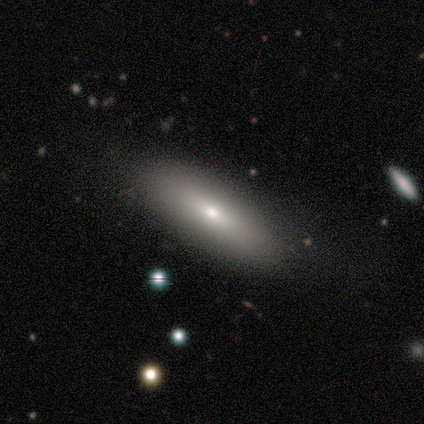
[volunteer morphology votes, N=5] A smooth galaxy with no disk features (60%) that is cigar-shaped (67%). Merging: none (100%).